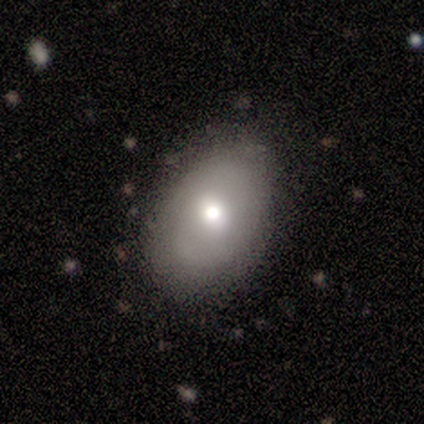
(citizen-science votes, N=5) Overall: smooth (60%; featured or disk 40%). How rounded: in between (100%). Merging: none (100%).